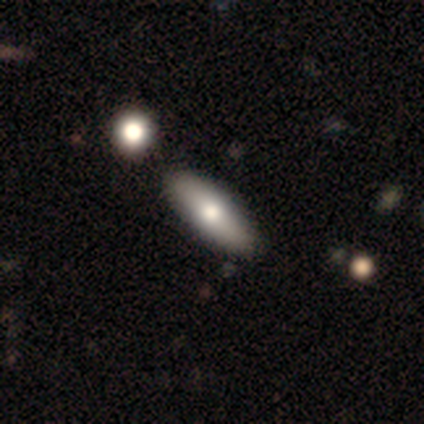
This appears to be a smooth galaxy with no disk features (74%) that is in between round and cigar-shaped (62%). Merging: none (61%).